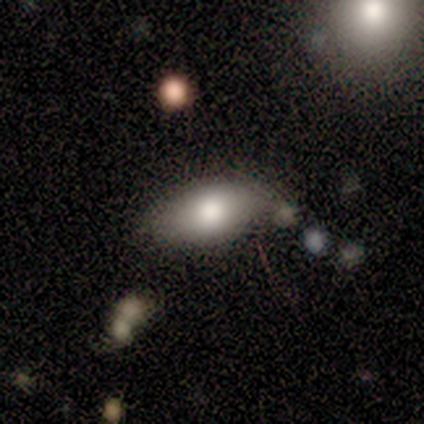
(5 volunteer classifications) smooth-or-featured: smooth: 60% | featured or disk: 40% | star or artifact: 0%
  how-rounded: in between: 100% | round: 0% | cigar-shaped: 0%
  merging: none: 80% | merger: 20% | minor disturbance: 0% | major disturbance: 0%